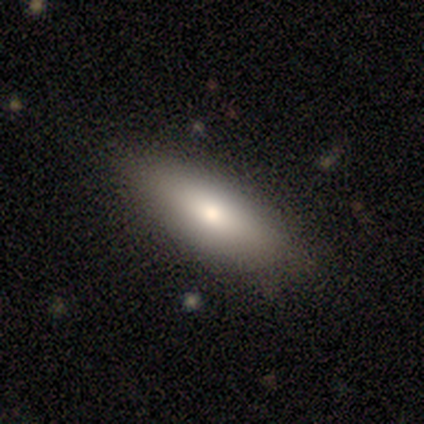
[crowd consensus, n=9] smooth 89%, star or artifact 11%, featured or disk 0%. Down the decision tree: how rounded — in between (62%); merging — none (88%).